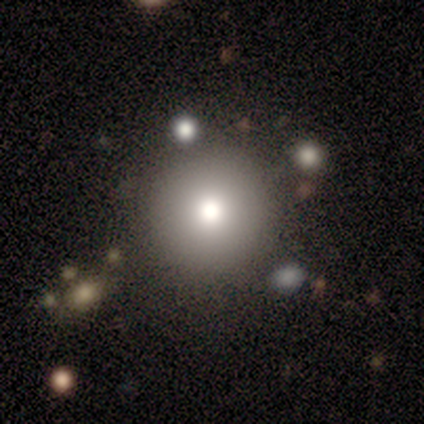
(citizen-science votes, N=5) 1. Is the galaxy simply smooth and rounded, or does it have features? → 80% smooth, 20% featured or disk, 0% star or artifact.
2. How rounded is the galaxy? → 100% round, 0% in between, 0% cigar-shaped.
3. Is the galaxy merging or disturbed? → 80% none, 20% minor disturbance, 0% major disturbance, 0% merger.